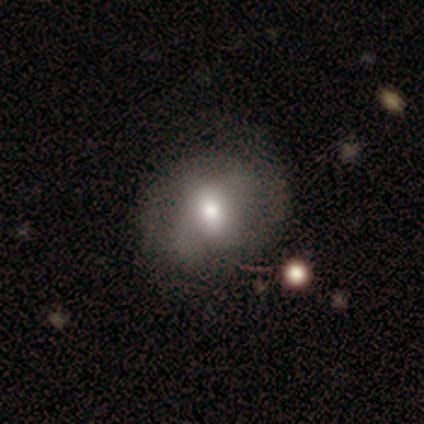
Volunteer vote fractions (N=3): A smooth galaxy with no disk features (100%) that is round (67%).

Vote fractions:
- Smooth or featured? smooth: 100% / featured or disk: 0% / star or artifact: 0%
- How rounded? round: 67% / in between: 33% / cigar-shaped: 0%
- Merging? none: 33% (tied) / major disturbance: 33% (tied) / merger: 33% (tied) / minor disturbance: 0%